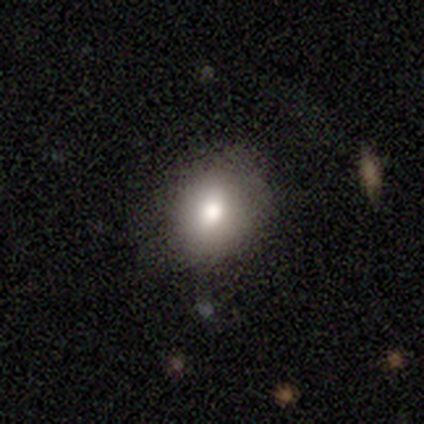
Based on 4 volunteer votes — Smooth or featured? 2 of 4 (50%) said smooth. How rounded? 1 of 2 (50%, tied with in between) said round. Merging? 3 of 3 (100%) said none.